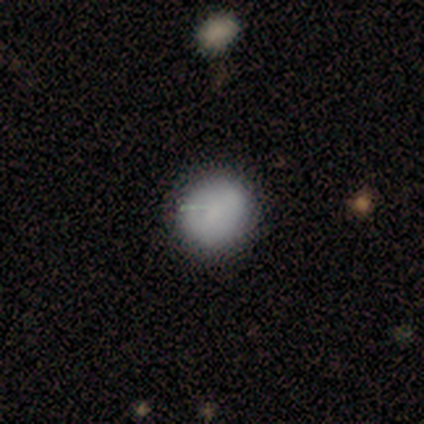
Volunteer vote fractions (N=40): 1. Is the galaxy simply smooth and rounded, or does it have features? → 95% smooth, 5% featured or disk, 0% star or artifact.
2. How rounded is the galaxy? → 95% round, 5% in between, 0% cigar-shaped.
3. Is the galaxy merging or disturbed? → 55% none, 8% minor disturbance, 0% major disturbance, 0% merger.